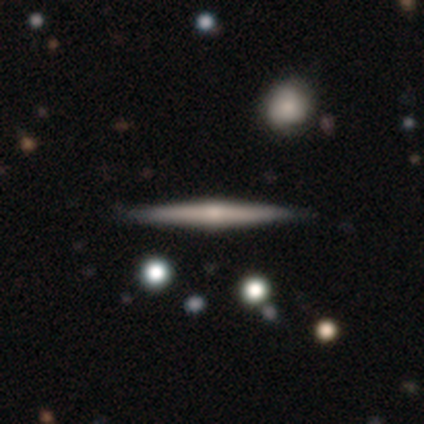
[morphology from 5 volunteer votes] Overall: featured or disk (60%; smooth 40%). Edge-on disk: yes (100%). Edge-on bulge: rounded (67%; none 33%). Merging: none (80%).